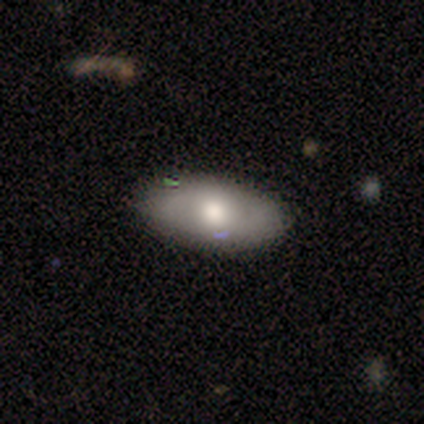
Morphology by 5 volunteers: smooth_or_featured: smooth (p=0.40) [tied with: featured or disk p=0.40]
how_rounded: in between (p=1.00)
merging: none (p=0.75) [alt: major disturbance p=0.25]